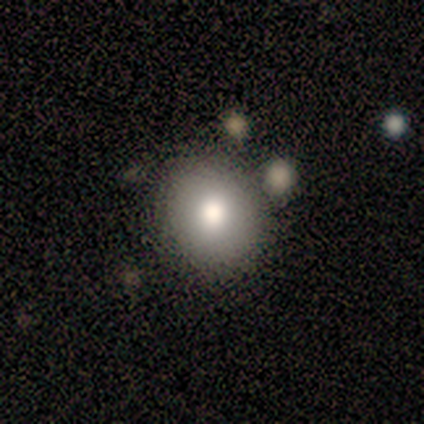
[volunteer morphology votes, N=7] smooth 71%, featured or disk 14%, star or artifact 14%. Down the decision tree: how rounded — round (80%); merging — minor disturbance (67%).